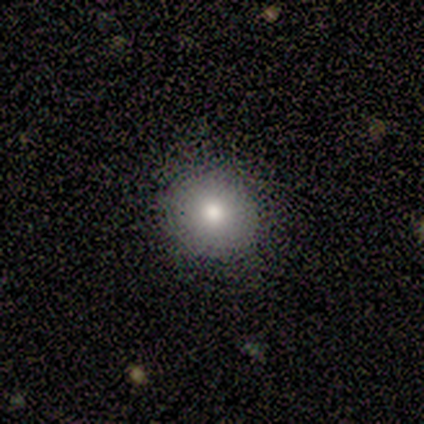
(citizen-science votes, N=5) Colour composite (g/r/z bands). It shows a smooth galaxy with no disk features (80%) that is round (100%). Merging: none (100%).